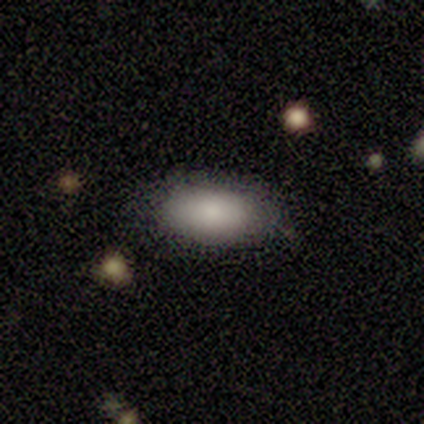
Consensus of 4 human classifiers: Morphology: type=smooth (100%); roundness=in between (100%); merging=none (100%).